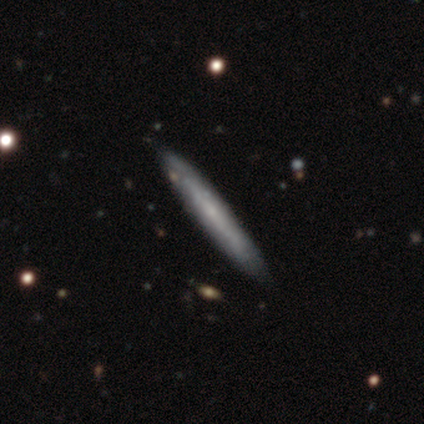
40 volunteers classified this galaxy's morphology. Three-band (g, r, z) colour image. It shows a featured or disk galaxy (50%) viewed edge-on (90%) with no central bulge (72%). Merging: none (67%).